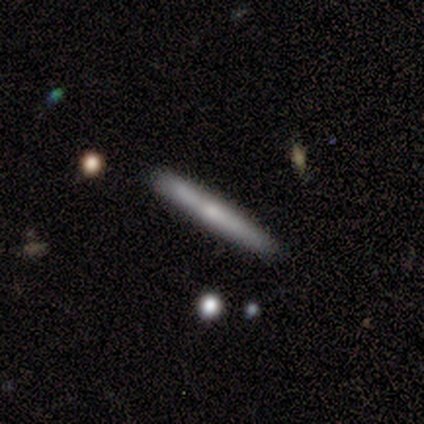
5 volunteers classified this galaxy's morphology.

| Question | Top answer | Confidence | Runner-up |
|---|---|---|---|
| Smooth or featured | featured or disk | 60% | smooth (40%) |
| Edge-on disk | yes | 100% | — |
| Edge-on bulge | none | 67% | rounded (33%) |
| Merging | none | 80% | minor disturbance (20%) |